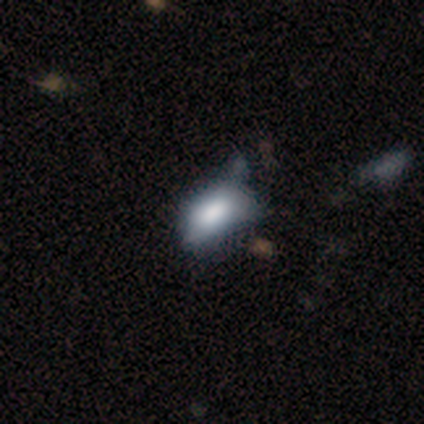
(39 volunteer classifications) Morphology: type=smooth (82%); roundness=in between (97%); merging=none (30%, tied with minor disturbance).